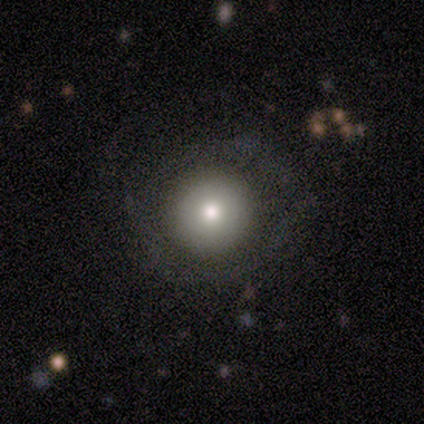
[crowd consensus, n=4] This is likely a smooth galaxy (75%). How rounded: clearly round (100%). Merging: likely none (67%).